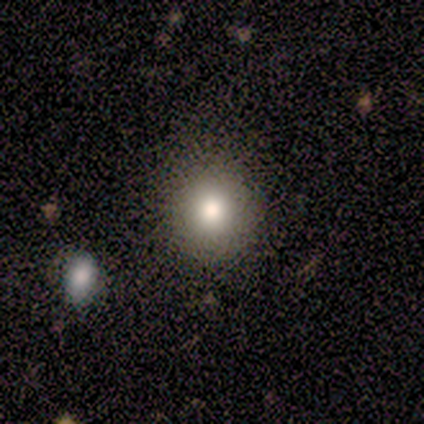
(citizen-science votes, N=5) smooth 60%, featured or disk 40%, star or artifact 0%. Down the decision tree: how rounded — round (100%); merging — none (100%).